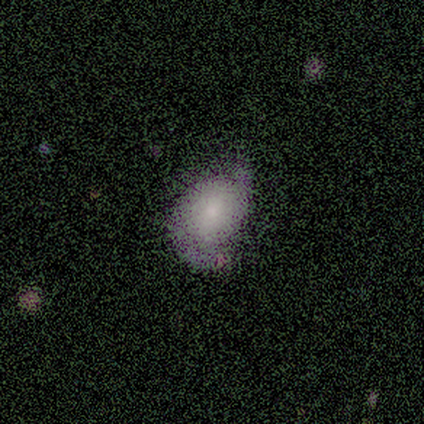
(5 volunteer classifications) smooth 60%, featured or disk 40%, star or artifact 0%. Down the decision tree: how rounded — in between (100%); merging — none (40%, tied with minor disturbance).